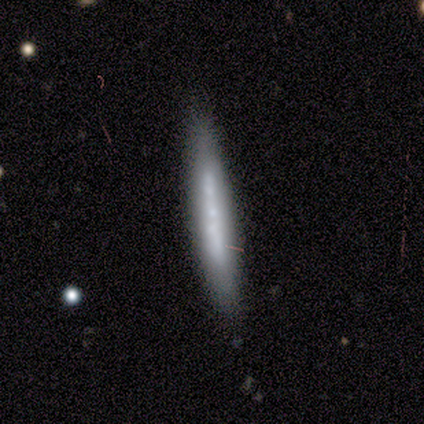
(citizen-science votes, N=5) Smooth or featured? 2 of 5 (40%, tied with star or artifact) said featured or disk. Edge-on disk? 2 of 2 (100%) said yes. Edge-on bulge? 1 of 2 (50%, tied with rounded) said none. Merging? 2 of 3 (67%) said none.